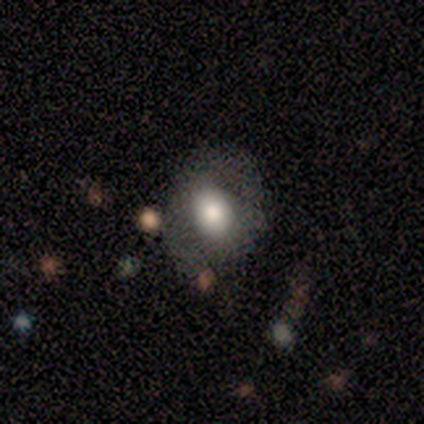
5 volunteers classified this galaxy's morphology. smooth_or_featured: smooth (p=0.40) [tied with: star or artifact p=0.40]
how_rounded: round (p=1.00)
merging: none (p=0.67) [alt: minor disturbance p=0.33]